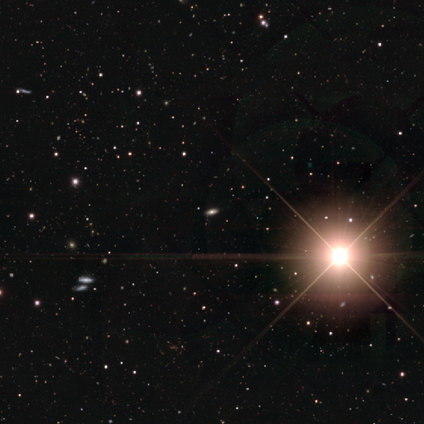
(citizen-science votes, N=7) Morphology: type=star or artifact (86%).